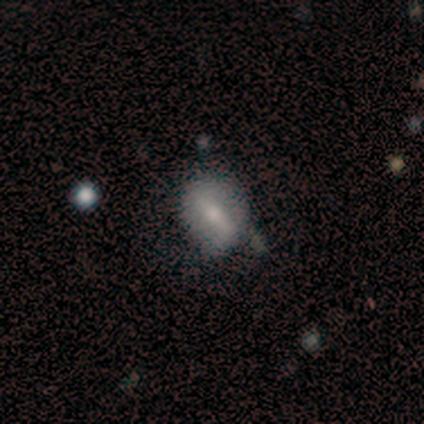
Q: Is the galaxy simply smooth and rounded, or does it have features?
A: featured or disk — 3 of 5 (60%).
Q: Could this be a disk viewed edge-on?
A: no — 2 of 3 (67%).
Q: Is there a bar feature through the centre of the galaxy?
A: strong — 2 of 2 (100%).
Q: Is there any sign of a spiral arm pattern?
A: no — 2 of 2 (100%).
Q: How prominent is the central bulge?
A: small — 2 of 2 (100%).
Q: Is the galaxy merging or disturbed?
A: none — 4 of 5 (80%).